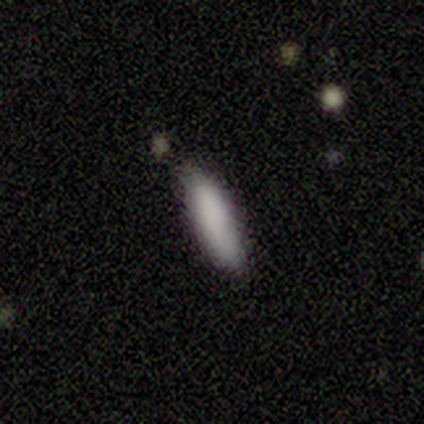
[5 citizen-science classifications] smooth-or-featured: smooth: 100% | featured or disk: 0% | star or artifact: 0%
  how-rounded: cigar-shaped: 60% | in between: 40% | round: 0%
  merging: none: 80% | minor disturbance: 20% | major disturbance: 0% | merger: 0%